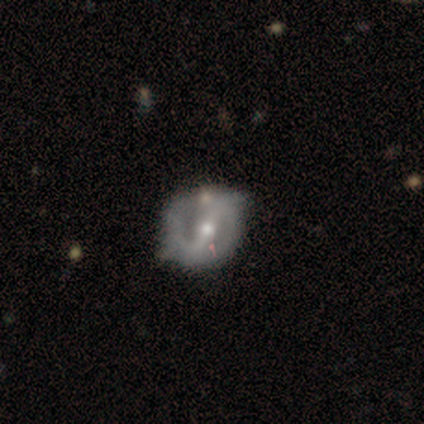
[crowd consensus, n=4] featured or disk 100%, smooth 0%, star or artifact 0%. Down the decision tree: edge-on disk — no (100%); bar — strong (75%); spiral arms — yes (75%); spiral arm count — 2 (100%); spiral winding — tight (33%, tied with medium and loose); bulge size — moderate (75%); merging — none (50%).